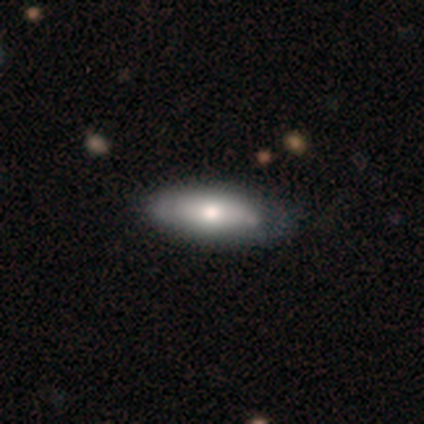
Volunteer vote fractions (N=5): Smooth or featured?
  - smooth: 100% *
  - featured or disk: 0%
  - star or artifact: 0%
How rounded?
  - in between: 80% *
  - cigar-shaped: 20%
  - round: 0%
Merging?
  - none: 80% *
  - minor disturbance: 20%
  - major disturbance: 0%
  - merger: 0%